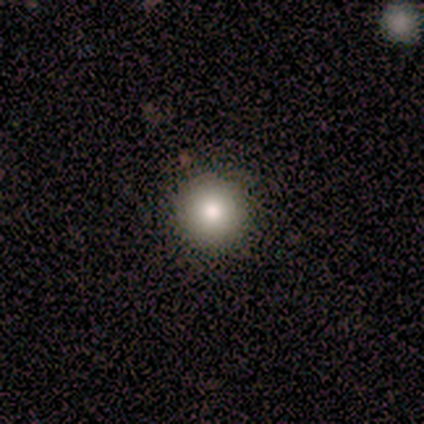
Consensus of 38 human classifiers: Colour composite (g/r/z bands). It shows a smooth galaxy with no disk features (74%) that is round (93%). Merging: none (94%).